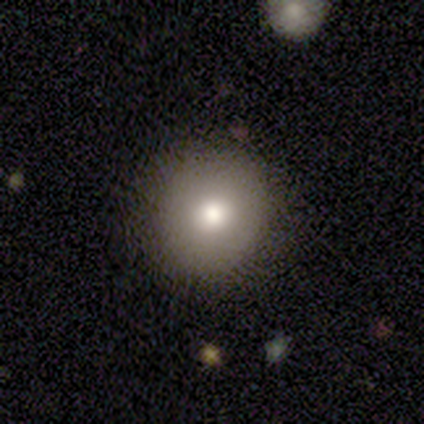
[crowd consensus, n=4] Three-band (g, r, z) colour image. It shows a smooth galaxy with no disk features (75%) that is round (100%). Merging: none (100%).